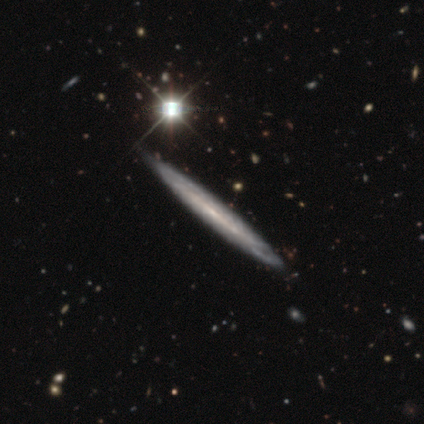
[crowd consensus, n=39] Morphology: type=featured or disk (69%); edge-on=yes (96%); edge-on bulge=none (88%); merging=none (49%).